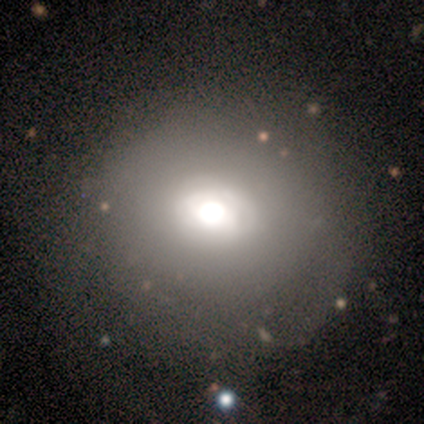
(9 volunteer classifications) smooth-or-featured: smooth: 78% | featured or disk: 11% | star or artifact: 11%
  how-rounded: round: 86% | in between: 14% | cigar-shaped: 0%
  merging: none: 88% | minor disturbance: 12% | major disturbance: 0% | merger: 0%